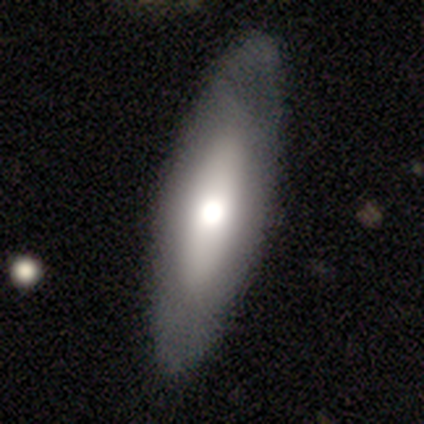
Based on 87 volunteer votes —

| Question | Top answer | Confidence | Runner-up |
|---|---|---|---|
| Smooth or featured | smooth | 61% | featured or disk (34%) |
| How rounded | cigar-shaped | 53% | in between (45%) |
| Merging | none | 86% | minor disturbance (11%) |